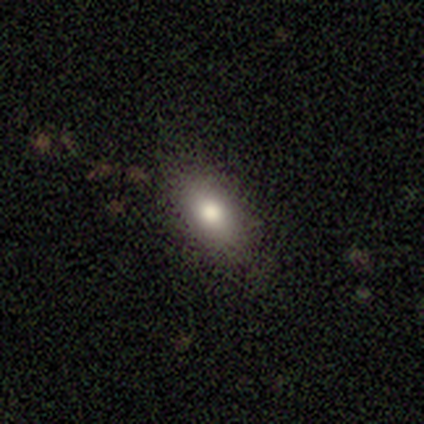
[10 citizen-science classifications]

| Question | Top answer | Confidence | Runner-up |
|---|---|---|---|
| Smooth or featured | smooth | 80% | featured or disk (10%) |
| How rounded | in between | 88% | round (12%) |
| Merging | none | 100% | — |